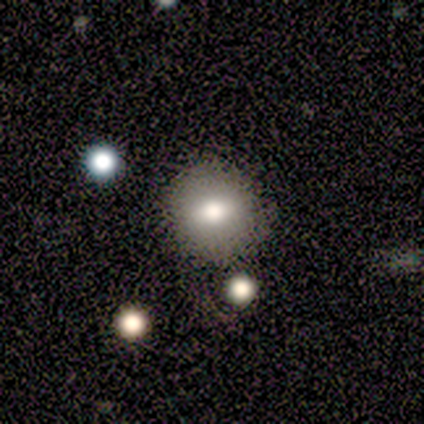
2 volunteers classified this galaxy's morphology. Smooth or featured: smooth — 50% (tied with star or artifact — 50%)
How rounded: in between — 100%
Merging: minor disturbance — 100%